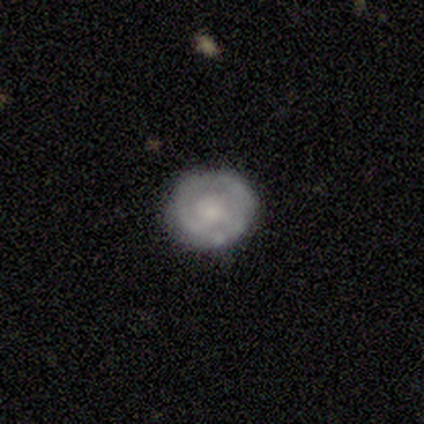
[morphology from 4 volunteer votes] This appears to be a smooth galaxy with no disk features (50%, tied with featured or disk) that is round (100%). Merging: none (75%).